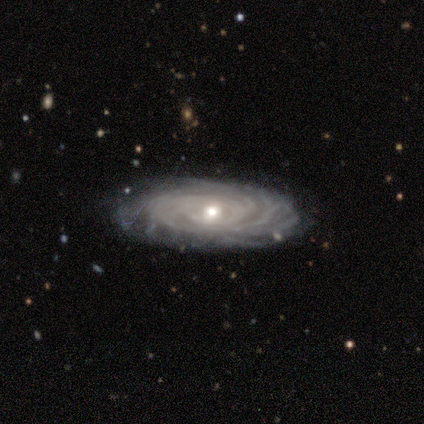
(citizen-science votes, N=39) This appears to be a featured or disk galaxy (85%) with no bar (81%), tight (90%) spiral arms (97%) and a moderate central bulge (59%). Merging: none (89%).